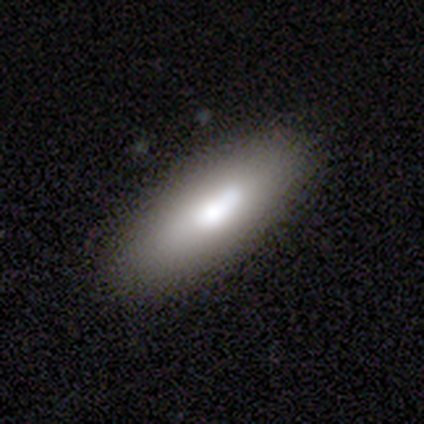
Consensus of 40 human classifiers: smooth 60%, featured or disk 30%, star or artifact 10%. Down the decision tree: how rounded — in between (79%); merging — none (75%).